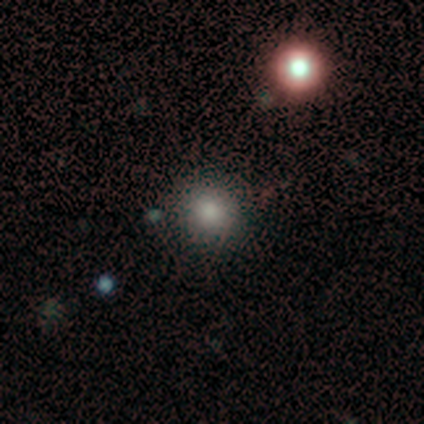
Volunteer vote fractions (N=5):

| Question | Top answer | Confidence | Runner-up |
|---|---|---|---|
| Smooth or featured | smooth | 100% | — |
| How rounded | round | 100% | — |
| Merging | none | 80% | merger (20%) |